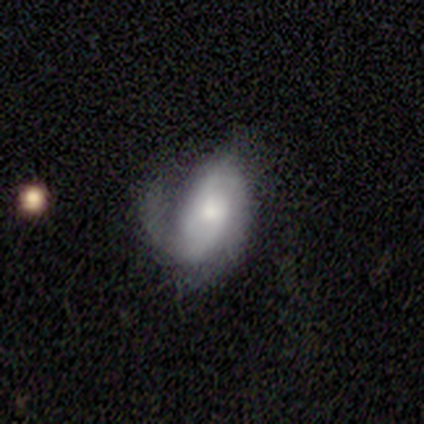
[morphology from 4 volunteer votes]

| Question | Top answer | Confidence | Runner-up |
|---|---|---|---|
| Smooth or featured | featured or disk | 75% | smooth (25%) |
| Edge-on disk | no | 100% | — |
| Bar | weak | 67% | no (33%) |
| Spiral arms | yes | 100% | — |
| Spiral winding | tight | 67% | medium (33%) |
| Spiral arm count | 1 | 33% | tied: 2 (33%), can't tell (33%) |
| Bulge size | moderate | 67% | small (33%) |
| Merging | none | 50% | tied: major disturbance (50%) |